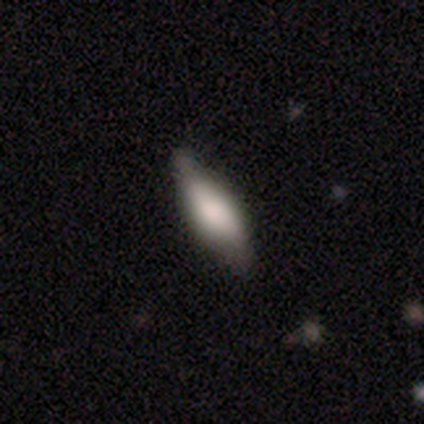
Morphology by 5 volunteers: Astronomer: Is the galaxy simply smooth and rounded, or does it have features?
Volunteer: smooth — 80%.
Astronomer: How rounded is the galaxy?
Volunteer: in between — 75%.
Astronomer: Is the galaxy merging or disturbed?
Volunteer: none — 40% (runner-up: minor disturbance, 20%).